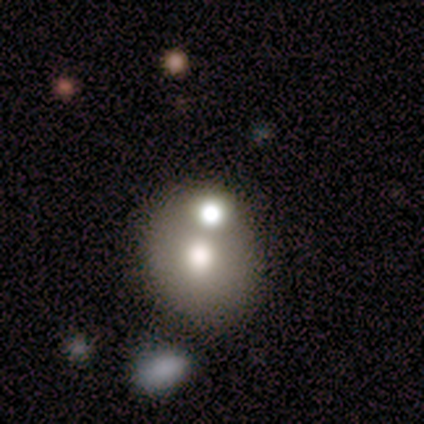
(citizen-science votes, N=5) smooth 60%, featured or disk 20%, star or artifact 20%. Down the decision tree: how rounded — round (67%); merging — none (75%).